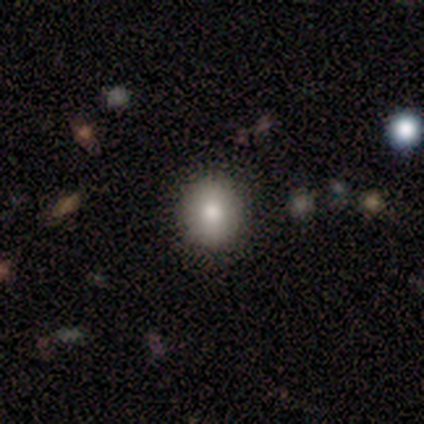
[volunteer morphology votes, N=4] A smooth galaxy with no disk features (100%) that is round (75%). Merging: none (75%).